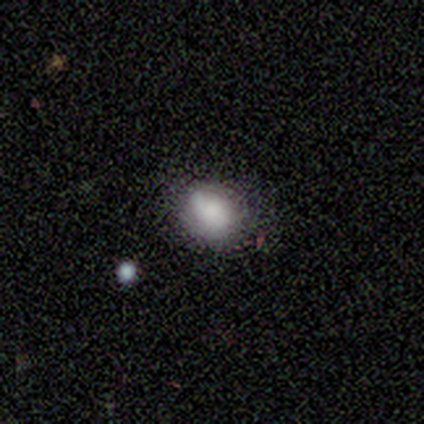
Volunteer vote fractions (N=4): smooth-or-featured: smooth: 75% | featured or disk: 25% | star or artifact: 0%
  how-rounded: round: 100% | in between: 0% | cigar-shaped: 0%
  merging: none: 75% | merger: 25% | minor disturbance: 0% | major disturbance: 0%